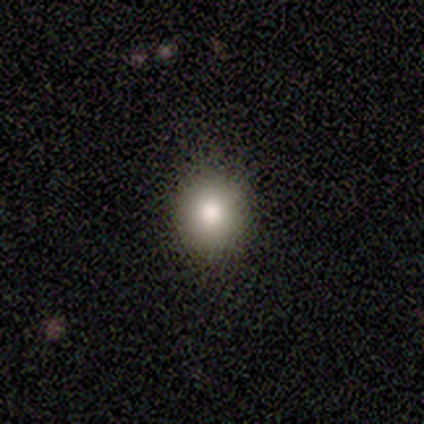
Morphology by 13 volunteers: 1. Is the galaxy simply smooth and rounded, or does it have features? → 85% smooth, 8% featured or disk, 8% star or artifact.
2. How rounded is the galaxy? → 73% round, 27% in between, 0% cigar-shaped.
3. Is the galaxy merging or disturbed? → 92% none, 8% minor disturbance, 0% major disturbance, 0% merger.